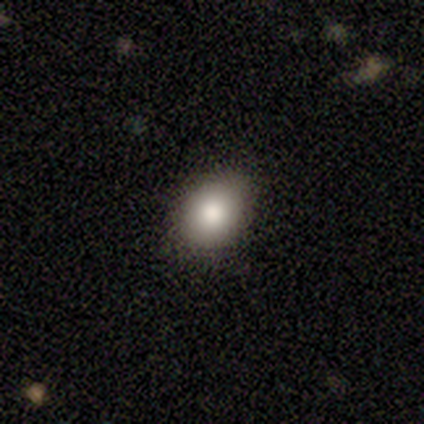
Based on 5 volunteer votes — A smooth galaxy with no disk features (80%) that is in between round and cigar-shaped (75%).

Vote fractions:
- Smooth or featured? smooth: 80% / star or artifact: 20% / featured or disk: 0%
- How rounded? in between: 75% / round: 25% / cigar-shaped: 0%
- Merging? none: 50% / minor disturbance: 25% / major disturbance: 25% / merger: 0%